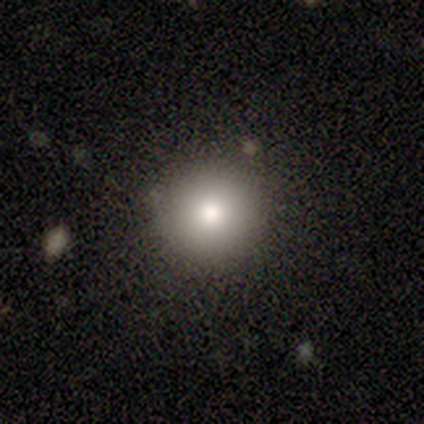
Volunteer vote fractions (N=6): A smooth galaxy with no disk features (50%, tied with star or artifact) that is round (100%).

Vote fractions:
- Smooth or featured? smooth: 50% (tied) / star or artifact: 50% (tied) / featured or disk: 0%
- How rounded? round: 100% / in between: 0% / cigar-shaped: 0%
- Merging? none: 100% / minor disturbance: 0% / major disturbance: 0% / merger: 0%